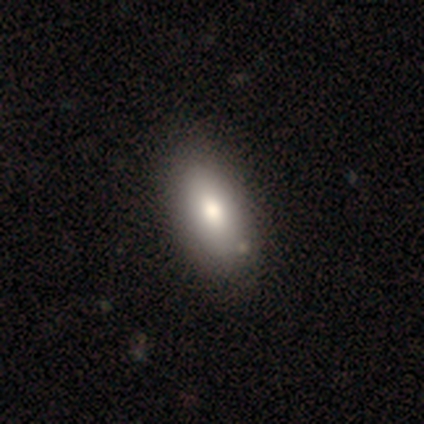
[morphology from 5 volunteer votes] Smooth or featured?
  - smooth: 80% *
  - featured or disk: 20%
  - star or artifact: 0%
How rounded?
  - in between: 100% *
  - round: 0%
  - cigar-shaped: 0%
Merging?
  - none: 100% *
  - minor disturbance: 0%
  - major disturbance: 0%
  - merger: 0%